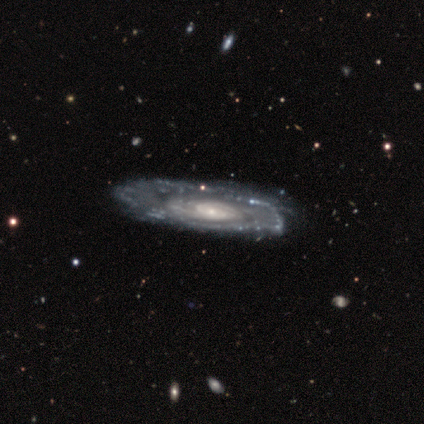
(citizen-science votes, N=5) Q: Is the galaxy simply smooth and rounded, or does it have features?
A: featured or disk — 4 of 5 (80%).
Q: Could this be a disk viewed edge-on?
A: no — 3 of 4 (75%).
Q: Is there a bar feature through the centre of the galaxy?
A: weak — 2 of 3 (67%).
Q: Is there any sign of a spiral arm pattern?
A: yes — 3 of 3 (100%).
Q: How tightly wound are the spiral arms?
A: tight — 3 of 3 (100%).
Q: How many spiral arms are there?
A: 2 — 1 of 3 (33%, tied with 3 and can't tell).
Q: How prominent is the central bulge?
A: moderate — 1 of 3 (33%, tied with small and none).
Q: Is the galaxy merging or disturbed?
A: none — 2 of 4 (50%, tied with minor disturbance).